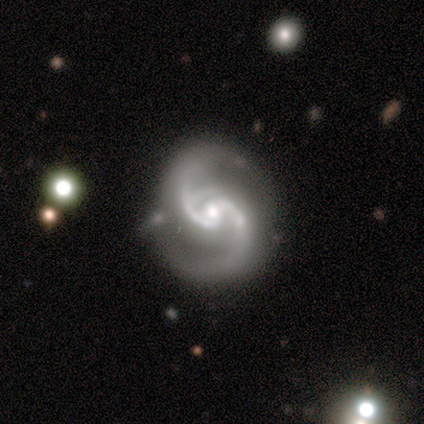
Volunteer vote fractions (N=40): Smooth or featured?
  - featured or disk: 98% *
  - star or artifact: 2%
  - smooth: 0%
Edge-on disk?
  - no: 97% *
  - yes: 3%
Bar?
  - no: 47% *
  - weak: 34%
  - strong: 18%
Spiral arms?
  - yes: 100% *
  - no: 0%
Spiral winding?
  - medium: 71% *
  - loose: 21%
  - tight: 8%
Spiral arm count?
  - 2: 82% *
  - 3: 11%
  - can't tell: 5%
  - 4: 3%
  - 1: 0%
  - more than 4: 0%
Bulge size?
  - moderate: 50% *
  - small: 47%
  - none: 3%
  - dominant: 0%
  - large: 0%
Merging?
  - none: 82% *
  - minor disturbance: 15%
  - major disturbance: 3%
  - merger: 0%